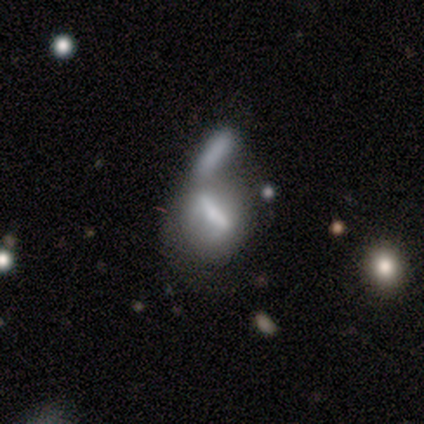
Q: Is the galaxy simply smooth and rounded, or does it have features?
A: smooth — 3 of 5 (60%).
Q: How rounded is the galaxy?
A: in between — 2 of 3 (67%).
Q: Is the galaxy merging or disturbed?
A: merger — 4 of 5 (80%).